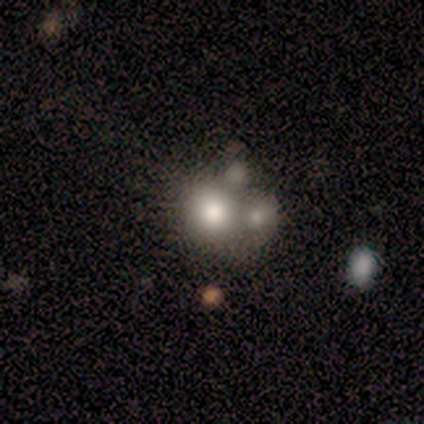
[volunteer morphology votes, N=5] Smooth or featured? 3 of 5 (60%) said smooth. How rounded? 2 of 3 (67%) said round. Merging? 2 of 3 (67%) said none.